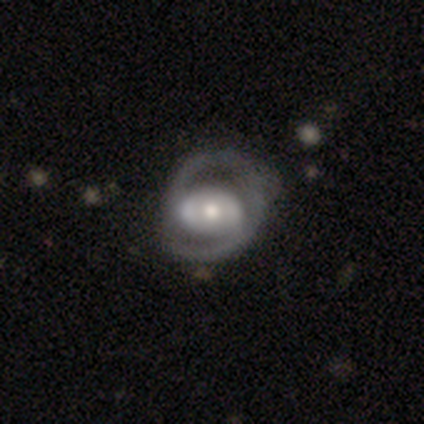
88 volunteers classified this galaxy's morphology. featured or disk 77%, smooth 18%, star or artifact 5%. Down the decision tree: edge-on disk — no (96%); bar — no (58%); spiral arms — yes (74%); spiral arm count — 2 (81%); spiral winding — medium (50%); bulge size — moderate (63%); merging — none (58%).